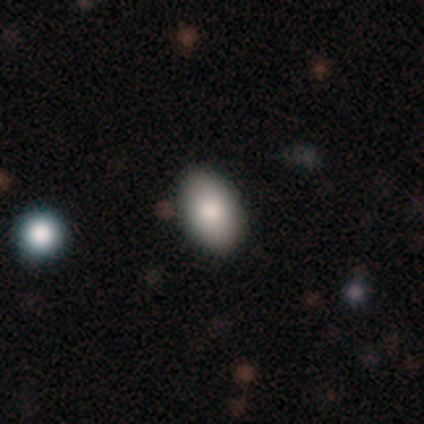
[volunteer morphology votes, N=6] A smooth galaxy with no disk features (83%) that is in between round and cigar-shaped (100%).

Vote fractions:
- Smooth or featured? smooth: 83% / star or artifact: 17% / featured or disk: 0%
- How rounded? in between: 100% / round: 0% / cigar-shaped: 0%
- Merging? none: 100% / minor disturbance: 0% / major disturbance: 0% / merger: 0%